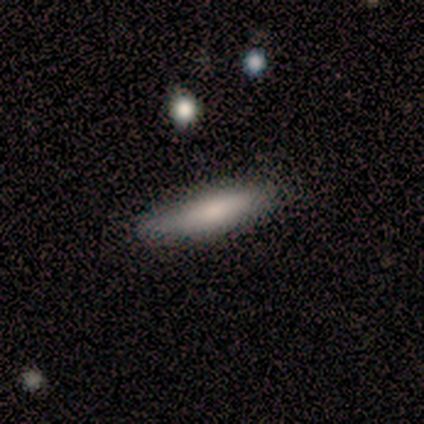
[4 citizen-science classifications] Q: Smooth or featured?
A: smooth (75%); runner-up: featured or disk (25%)
Q: How rounded?
A: cigar-shaped (67%); runner-up: in between (33%)
Q: Merging?
A: none (75%); runner-up: minor disturbance (25%)